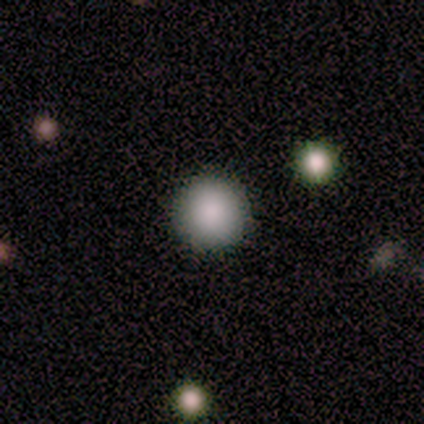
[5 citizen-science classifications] smooth_or_featured: smooth (p=1.00)
how_rounded: round (p=1.00)
merging: none (p=0.80) [alt: minor disturbance p=0.20]